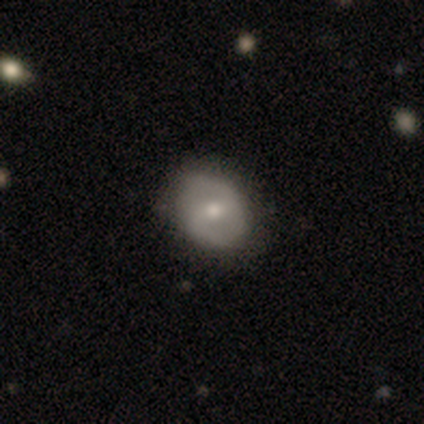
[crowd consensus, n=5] Q: Smooth or featured?
A: smooth (60%); runner-up: featured or disk (40%)
Q: How rounded?
A: round (67%); runner-up: in between (33%)
Q: Merging?
A: none (100%)